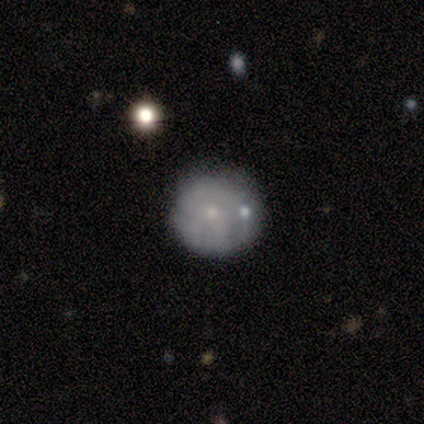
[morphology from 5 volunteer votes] Q: Smooth or featured?
A: smooth (40%); tied with: featured or disk (40%)
Q: How rounded?
A: round (100%)
Q: Merging?
A: minor disturbance (50%); runner-up: major disturbance (25%)